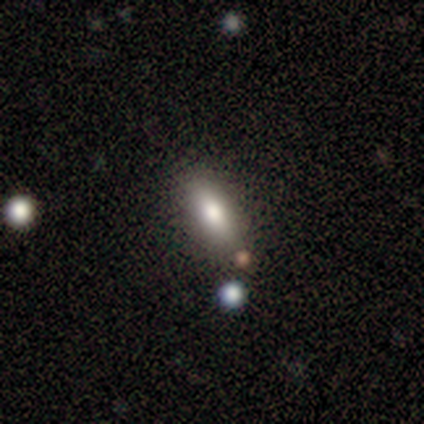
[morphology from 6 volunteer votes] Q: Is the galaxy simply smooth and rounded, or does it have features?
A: smooth — 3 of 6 (50%, tied with featured or disk).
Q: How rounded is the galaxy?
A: in between — 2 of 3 (67%).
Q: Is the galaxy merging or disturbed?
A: none — 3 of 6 (50%).